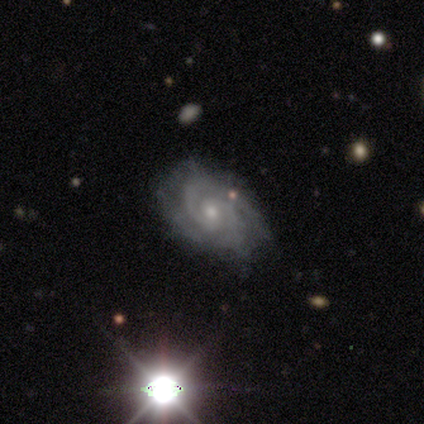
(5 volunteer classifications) featured or disk 100%, smooth 0%, star or artifact 0%. Down the decision tree: edge-on disk — no (100%); bar — no (80%); spiral arms — yes (100%); spiral arm count — 2 (60%); spiral winding — medium (60%); bulge size — moderate (60%); merging — none (80%).